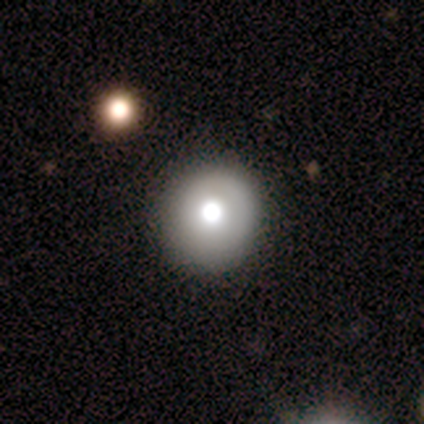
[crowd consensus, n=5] Q: Smooth or featured?
A: smooth (80%); runner-up: star or artifact (20%)
Q: How rounded?
A: round (100%)
Q: Merging?
A: none (75%); runner-up: minor disturbance (25%)